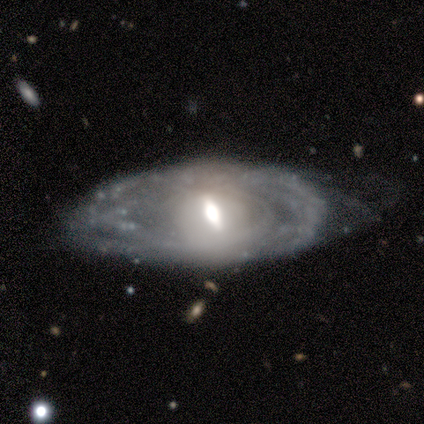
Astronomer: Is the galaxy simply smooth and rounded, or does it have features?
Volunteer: featured or disk — 80%.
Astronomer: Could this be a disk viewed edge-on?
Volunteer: no — 100%.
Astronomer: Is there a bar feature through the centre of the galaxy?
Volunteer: weak — 75%.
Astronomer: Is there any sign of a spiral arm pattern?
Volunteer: yes — 75%.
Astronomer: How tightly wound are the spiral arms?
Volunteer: tight — 67%.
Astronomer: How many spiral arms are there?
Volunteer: can't tell — 100%.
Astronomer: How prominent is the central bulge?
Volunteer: large — 50%, tied with moderate at 50%.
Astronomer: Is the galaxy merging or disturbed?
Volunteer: none — 40%, tied with major disturbance at 40%.